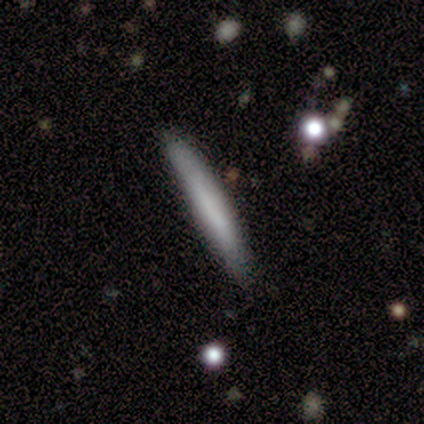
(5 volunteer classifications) Smooth or featured?
  - smooth: 40% * (tied)
  - featured or disk: 40% * (tied)
  - star or artifact: 20%
How rounded?
  - in between: 50% * (tied)
  - cigar-shaped: 50% * (tied)
  - round: 0%
Merging?
  - none: 100% *
  - minor disturbance: 0%
  - major disturbance: 0%
  - merger: 0%